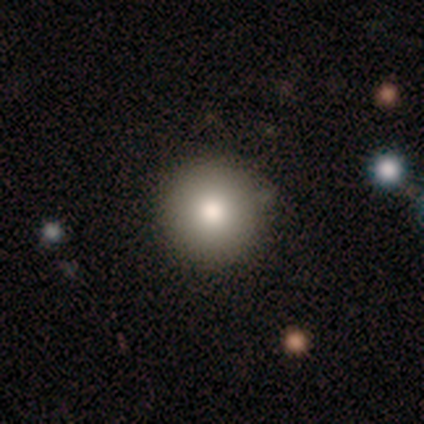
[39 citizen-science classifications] A smooth galaxy with no disk features (69%) that is round (100%). Merging: none (94%).